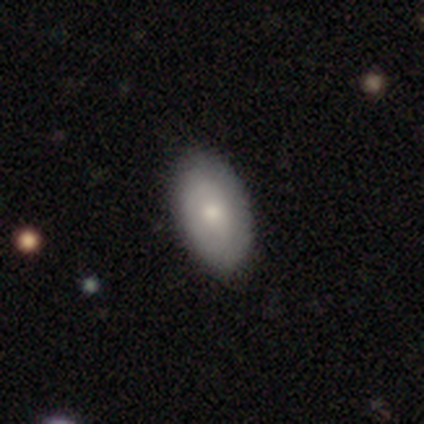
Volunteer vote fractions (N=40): A smooth galaxy with no disk features (70%) that is in between round and cigar-shaped (93%).

Vote fractions:
- Smooth or featured? smooth: 70% / featured or disk: 25% / star or artifact: 5%
- How rounded? in between: 93% / round: 4% / cigar-shaped: 4%
- Merging? none: 71% / minor disturbance: 5% / major disturbance: 3% / merger: 0%